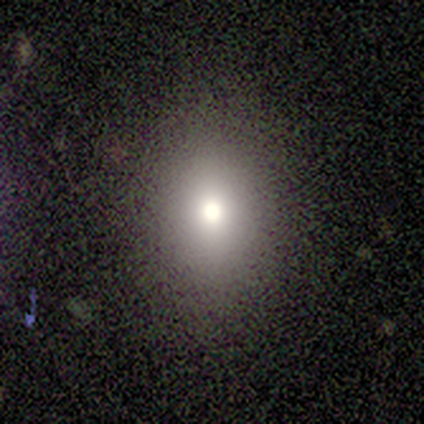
A star or artifact, not a galaxy (60%).